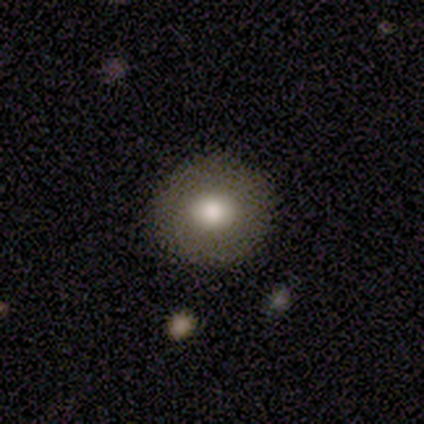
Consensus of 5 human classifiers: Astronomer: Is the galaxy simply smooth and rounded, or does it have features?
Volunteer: smooth — 80%.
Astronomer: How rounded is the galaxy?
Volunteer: round — 100%.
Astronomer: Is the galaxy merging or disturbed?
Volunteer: none — 100%.